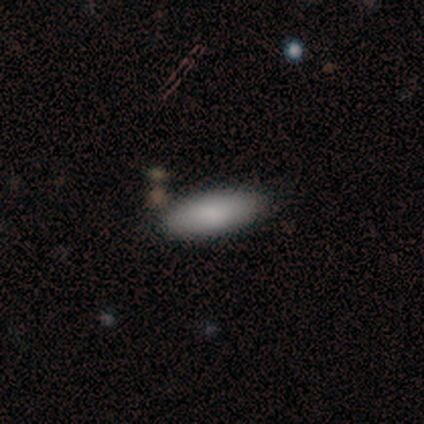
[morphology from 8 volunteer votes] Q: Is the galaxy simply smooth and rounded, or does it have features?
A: smooth — 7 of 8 (88%).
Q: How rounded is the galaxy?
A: in between — 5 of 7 (71%).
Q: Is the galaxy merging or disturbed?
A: none — 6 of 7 (86%).